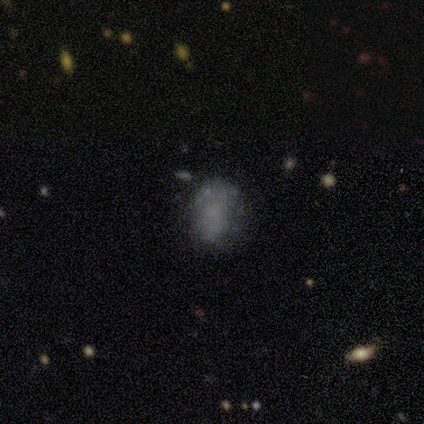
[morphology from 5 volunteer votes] Q: Smooth or featured?
A: smooth (80%); runner-up: featured or disk (20%)
Q: How rounded?
A: round (50%); tied with: in between (50%)
Q: Merging?
A: none (80%); runner-up: major disturbance (20%)